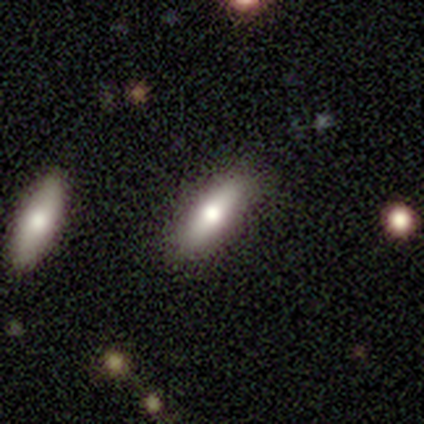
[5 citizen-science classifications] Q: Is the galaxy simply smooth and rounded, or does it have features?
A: featured or disk — 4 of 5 (80%).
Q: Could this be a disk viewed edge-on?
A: yes — 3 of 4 (75%).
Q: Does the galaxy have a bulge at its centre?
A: rounded — 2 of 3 (67%).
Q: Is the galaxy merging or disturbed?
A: none — 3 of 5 (60%).